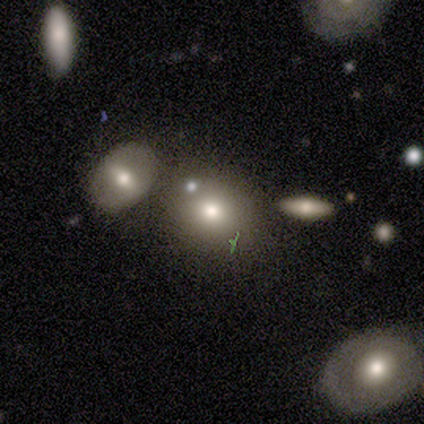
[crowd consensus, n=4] smooth-or-featured: smooth: 100% | featured or disk: 0% | star or artifact: 0%
  how-rounded: round: 100% | in between: 0% | cigar-shaped: 0%
  merging: none: 50% (tied) | minor disturbance: 50% (tied) | major disturbance: 0% | merger: 0%